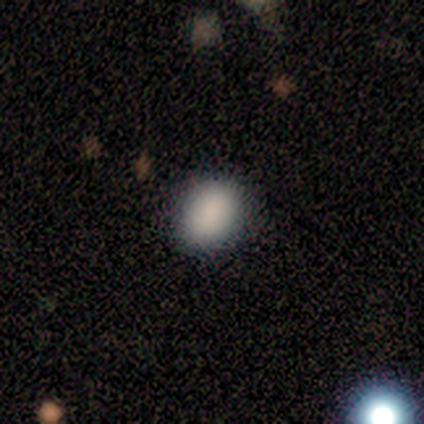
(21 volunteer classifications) This appears to be a smooth galaxy with no disk features (81%) that is round (53%). Merging: none (76%).